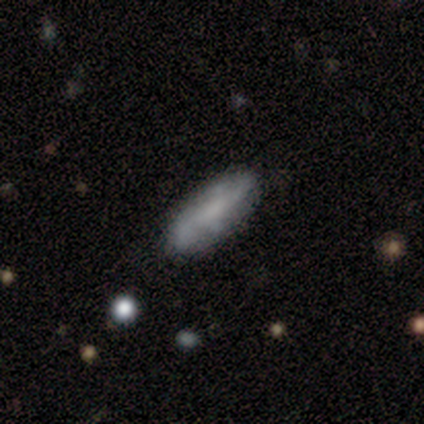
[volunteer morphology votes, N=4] This appears to be a smooth galaxy with no disk features (75%) that is in between round and cigar-shaped (100%). Merging: none (100%).